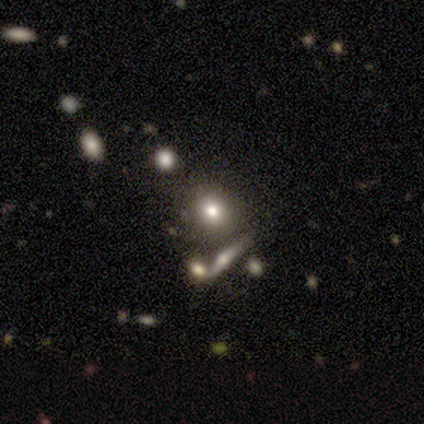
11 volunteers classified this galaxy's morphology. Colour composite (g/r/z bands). It shows a smooth galaxy with no disk features (55%) that is round (67%). Merging: none (100%).